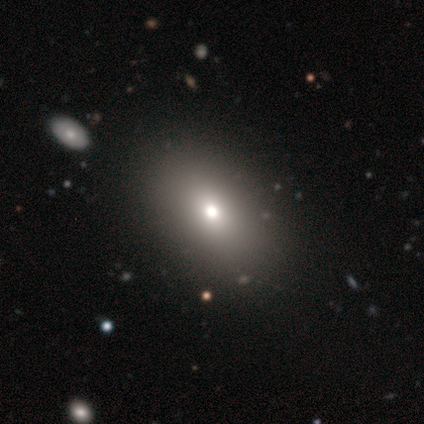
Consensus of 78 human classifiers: A smooth galaxy with no disk features (69%) that is in between round and cigar-shaped (87%). Merging: none (43%).